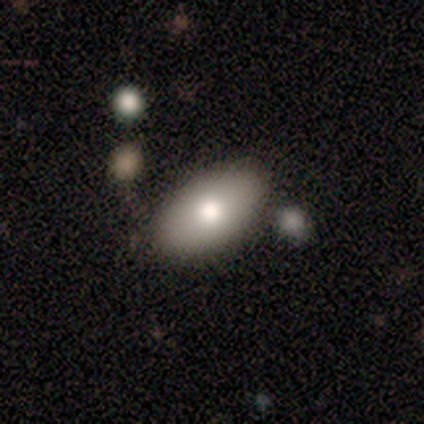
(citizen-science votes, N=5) Smooth or featured? smooth (60%)
How rounded? in between (100%)
Merging? none (100%)